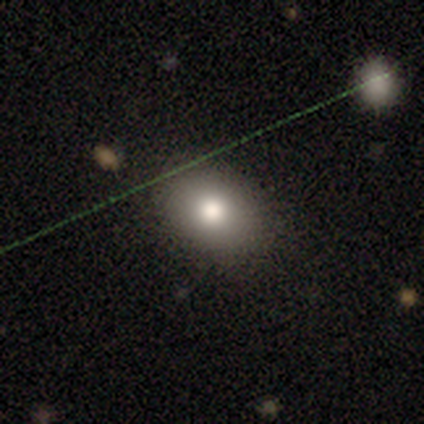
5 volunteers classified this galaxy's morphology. Smooth or featured? 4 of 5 (80%) said smooth. How rounded? 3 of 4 (75%) said in between. Merging? 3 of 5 (60%) said none.